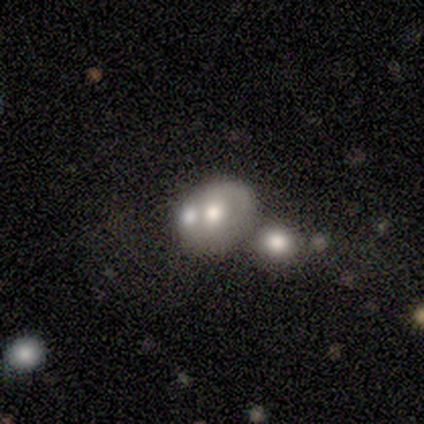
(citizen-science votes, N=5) Smooth or featured?
  - smooth: 60% *
  - star or artifact: 40%
  - featured or disk: 0%
How rounded?
  - in between: 67% *
  - round: 33%
  - cigar-shaped: 0%
Merging?
  - none: 33% * (tied)
  - minor disturbance: 33% * (tied)
  - merger: 33% * (tied)
  - major disturbance: 0%